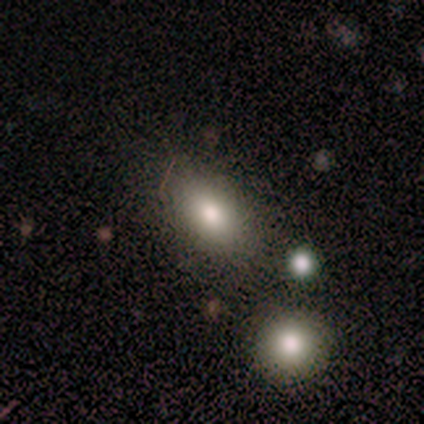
smooth-or-featured: smooth: 100% | featured or disk: 0% | star or artifact: 0%
  how-rounded: in between: 78% | round: 22% | cigar-shaped: 0%
  merging: none: 100% | minor disturbance: 0% | major disturbance: 0% | merger: 0%